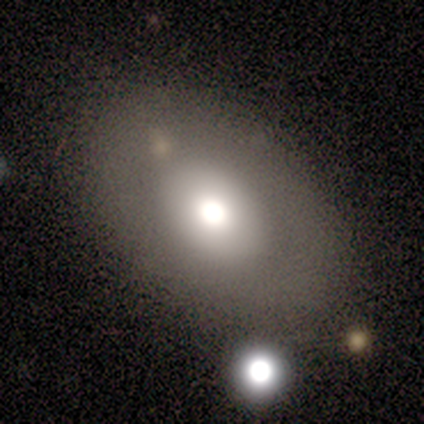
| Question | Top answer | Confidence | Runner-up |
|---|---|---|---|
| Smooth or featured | smooth | 57% | featured or disk (29%) |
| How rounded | round | 50% | tied: in between (50%) |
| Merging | none | 67% | minor disturbance (17%) |